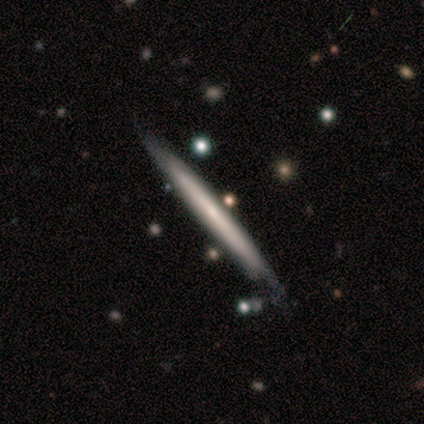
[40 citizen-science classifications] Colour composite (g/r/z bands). It shows a featured or disk galaxy (60%) viewed edge-on (92%) with no central bulge (86%). Merging: none (79%).